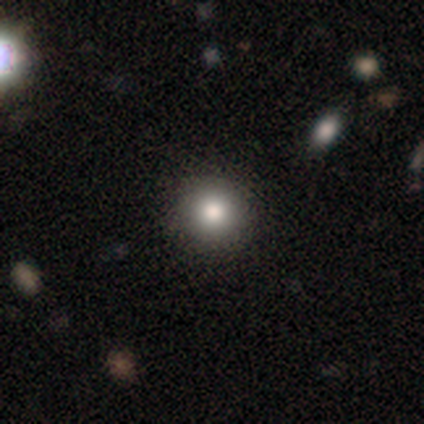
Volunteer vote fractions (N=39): Smooth or featured: smooth — 82% (star or artifact — 15%)
How rounded: round — 100%
Merging: none — 100%